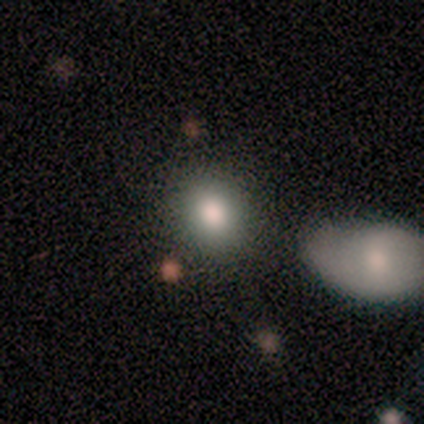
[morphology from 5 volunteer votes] A smooth galaxy with no disk features (60%) that is round (67%). Merging: none (100%).